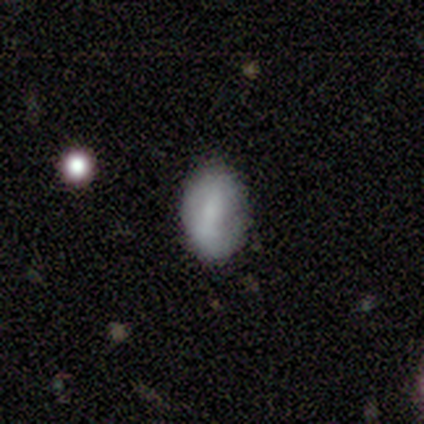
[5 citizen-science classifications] smooth-or-featured: smooth: 100% | featured or disk: 0% | star or artifact: 0%
  how-rounded: in between: 80% | round: 20% | cigar-shaped: 0%
  merging: none: 100% | minor disturbance: 0% | major disturbance: 0% | merger: 0%